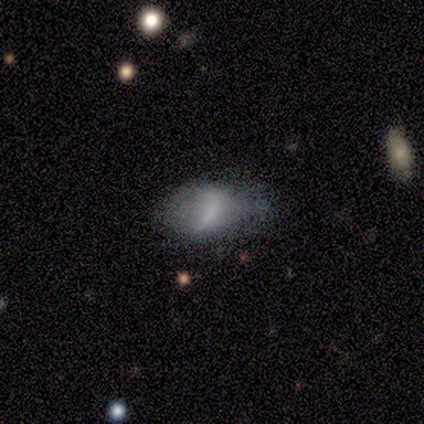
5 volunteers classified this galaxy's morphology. Q: Smooth or featured?
A: smooth (100%)
Q: How rounded?
A: in between (100%)
Q: Merging?
A: minor disturbance (80%); runner-up: none (20%)